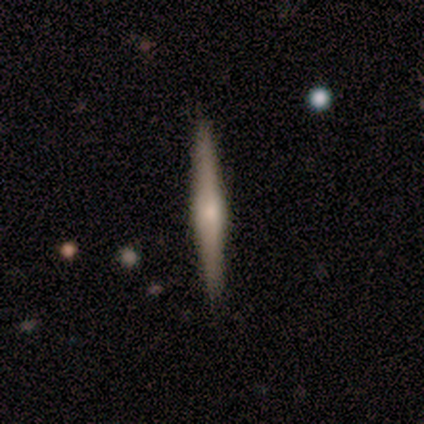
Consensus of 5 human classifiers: Smooth or featured? featured or disk (60%)
Edge-on disk? yes (100%)
Edge-on bulge? rounded (67%)
Merging? none (80%)